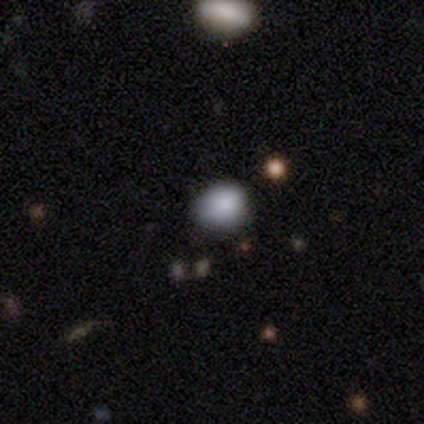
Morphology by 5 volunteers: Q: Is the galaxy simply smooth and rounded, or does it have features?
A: smooth — 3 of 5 (60%).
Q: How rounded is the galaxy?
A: in between — 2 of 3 (67%).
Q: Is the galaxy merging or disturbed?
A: none — 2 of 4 (50%).